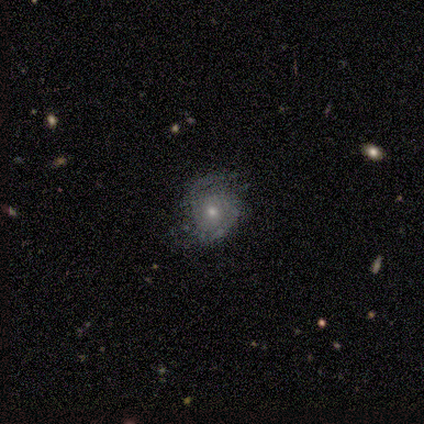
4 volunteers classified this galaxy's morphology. Q: Smooth or featured?
A: featured or disk (75%); runner-up: smooth (25%)
Q: Edge-on disk?
A: no (100%)
Q: Bar?
A: no (67%); runner-up: weak (33%)
Q: Spiral arms?
A: yes (67%); runner-up: no (33%)
Q: Spiral winding?
A: tight (50%); tied with: loose (50%)
Q: Spiral arm count?
A: 2 (100%)
Q: Bulge size?
A: small (67%); runner-up: none (33%)
Q: Merging?
A: none (50%); tied with: minor disturbance (50%)